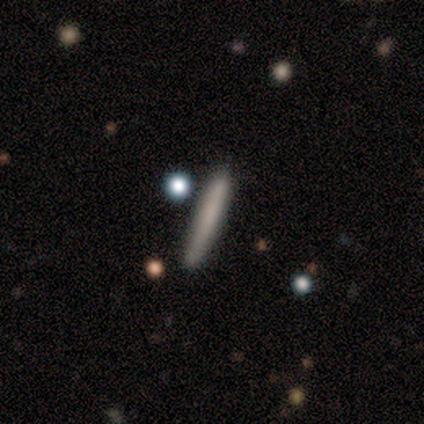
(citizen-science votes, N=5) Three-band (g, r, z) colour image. It shows a smooth galaxy with no disk features (100%) that is cigar-shaped (100%). Merging: none (60%).